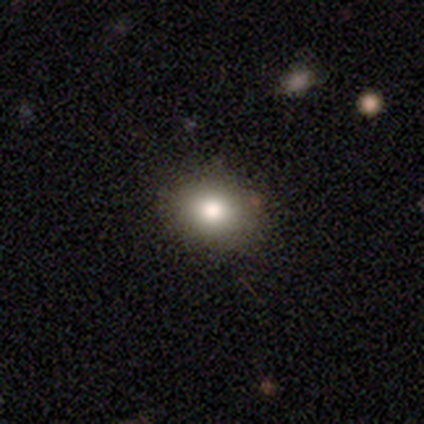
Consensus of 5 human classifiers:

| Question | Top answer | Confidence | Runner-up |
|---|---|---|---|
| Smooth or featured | smooth | 80% | star or artifact (20%) |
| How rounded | in between | 75% | round (25%) |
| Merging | none | 100% | — |